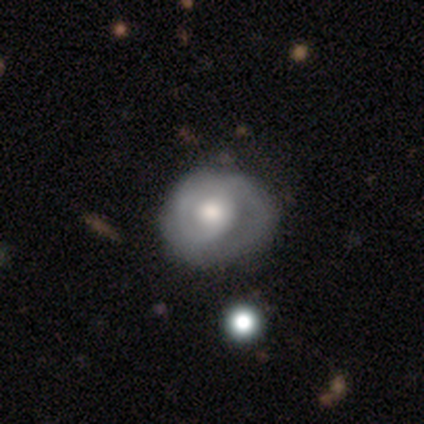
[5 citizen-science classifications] Smooth or featured?
  - featured or disk: 100% *
  - smooth: 0%
  - star or artifact: 0%
Edge-on disk?
  - no: 100% *
  - yes: 0%
Bar?
  - no: 60% *
  - weak: 40%
  - strong: 0%
Spiral arms?
  - yes: 80% *
  - no: 20%
Spiral winding?
  - medium: 75% *
  - tight: 25%
  - loose: 0%
Spiral arm count?
  - 2: 50% *
  - 1: 25%
  - can't tell: 25%
  - 3: 0%
  - 4: 0%
  - more than 4: 0%
Bulge size?
  - moderate: 80% *
  - large: 20%
  - dominant: 0%
  - small: 0%
  - none: 0%
Merging?
  - none: 80% *
  - major disturbance: 20%
  - minor disturbance: 0%
  - merger: 0%